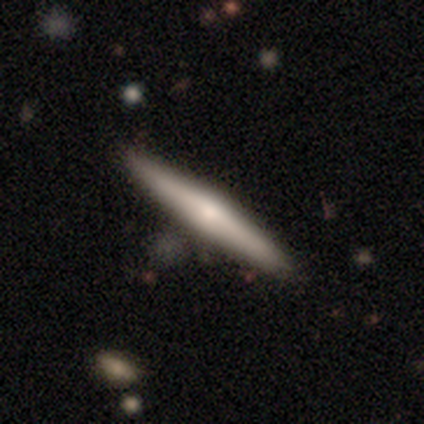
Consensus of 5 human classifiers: This appears to be a featured or disk galaxy (60%) viewed edge-on (100%) with a rounded central bulge (67%). Merging: none (100%).